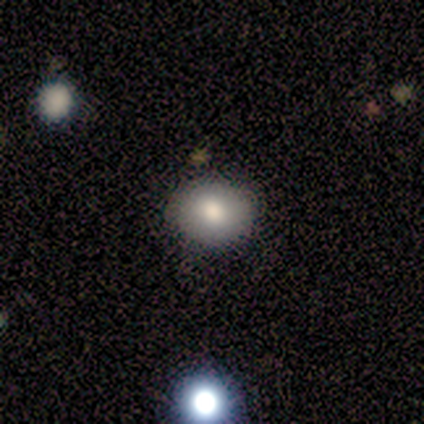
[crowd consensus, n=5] smooth 80%, featured or disk 20%, star or artifact 0%. Down the decision tree: how rounded — round (50%, tied with in between); merging — none (100%).